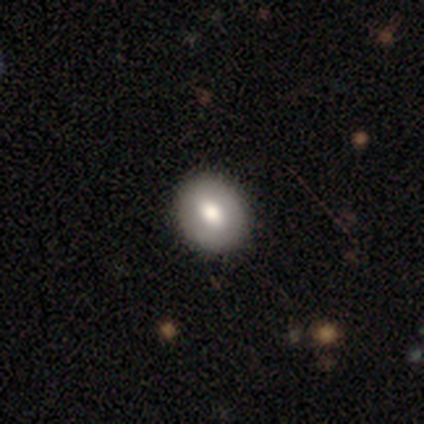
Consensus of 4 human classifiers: This is clearly a smooth galaxy (100%). How rounded: likely round (75%). Merging: clearly none (100%).